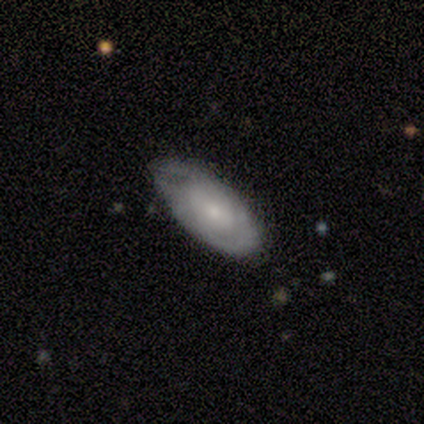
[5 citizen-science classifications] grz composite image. It shows a smooth galaxy with no disk features (80%) that is in between round and cigar-shaped (75%). Merging: minor disturbance (60%).